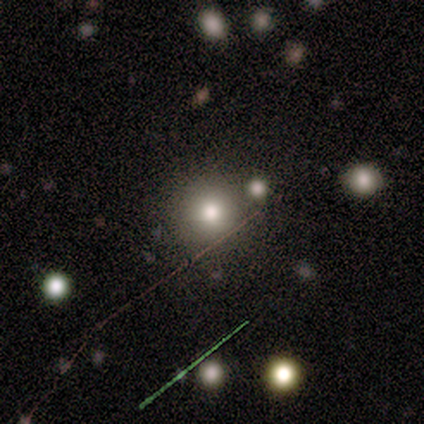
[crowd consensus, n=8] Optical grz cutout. It shows a smooth galaxy with no disk features (62%) that is round (100%). Merging: none (60%).